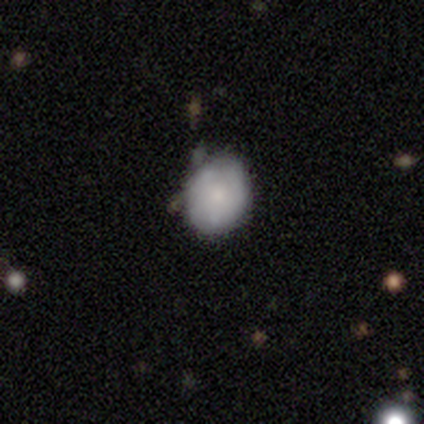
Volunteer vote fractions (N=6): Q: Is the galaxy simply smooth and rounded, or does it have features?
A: smooth — 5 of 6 (83%).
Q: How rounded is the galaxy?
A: round — 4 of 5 (80%).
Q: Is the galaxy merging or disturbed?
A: none — 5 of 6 (83%).